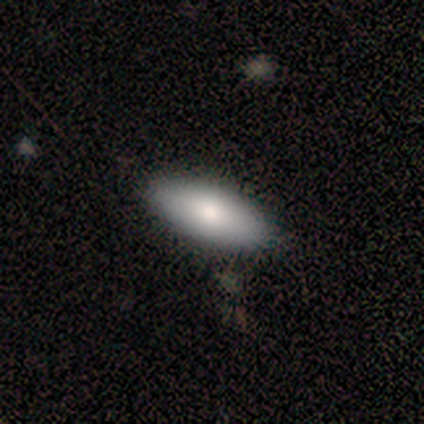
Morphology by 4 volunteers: Smooth or featured: smooth — 100%
How rounded: in between — 100%
Merging: none — 100%